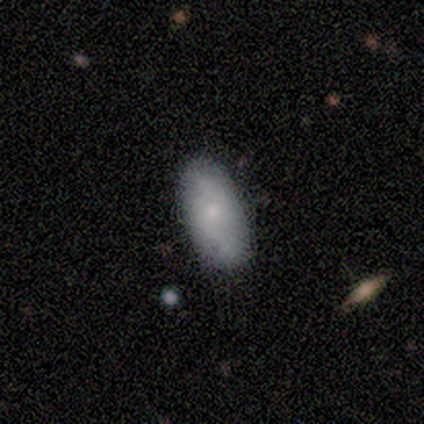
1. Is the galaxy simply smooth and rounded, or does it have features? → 60% smooth, 40% featured or disk, 0% star or artifact.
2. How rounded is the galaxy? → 100% in between, 0% round, 0% cigar-shaped.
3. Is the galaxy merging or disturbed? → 100% none, 0% minor disturbance, 0% major disturbance, 0% merger.